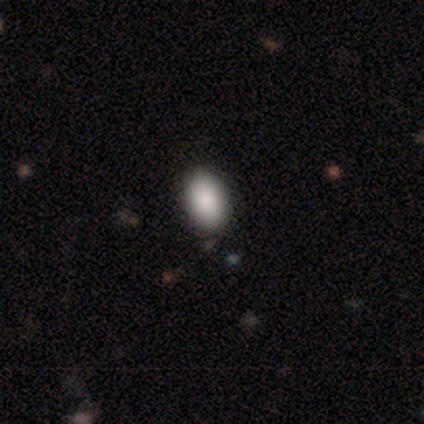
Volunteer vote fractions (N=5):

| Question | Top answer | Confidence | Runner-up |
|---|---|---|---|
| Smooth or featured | smooth | 100% | — |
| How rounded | in between | 80% | round (20%) |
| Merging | none | 100% | — |